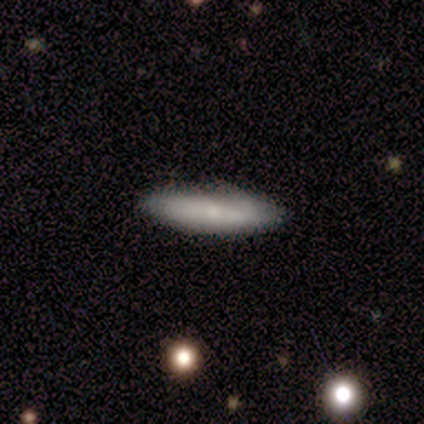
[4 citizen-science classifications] A smooth galaxy with no disk features (75%) that is in between round and cigar-shaped (67%).

Vote fractions:
- Smooth or featured? smooth: 75% / featured or disk: 25% / star or artifact: 0%
- How rounded? in between: 67% / cigar-shaped: 33% / round: 0%
- Merging? none: 100% / minor disturbance: 0% / major disturbance: 0% / merger: 0%